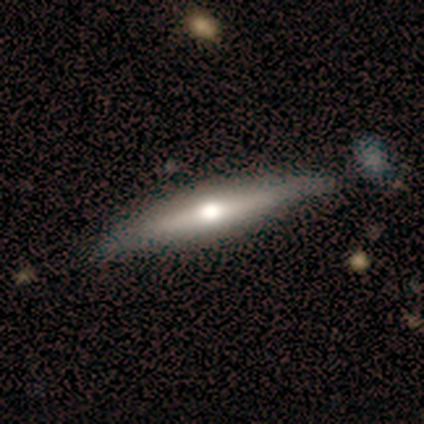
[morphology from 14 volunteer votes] type=smooth (50%); roundness=cigar-shaped (86%); merging=none (77%).